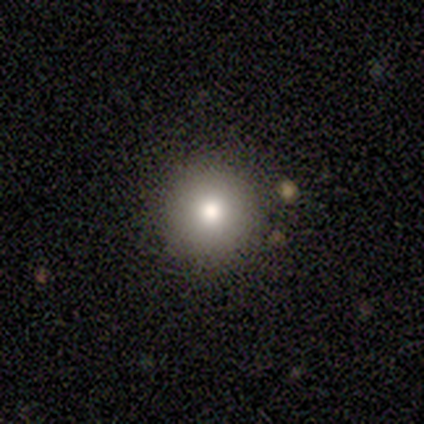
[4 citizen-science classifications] A smooth galaxy with no disk features (100%) that is round (100%). Merging: none (75%).